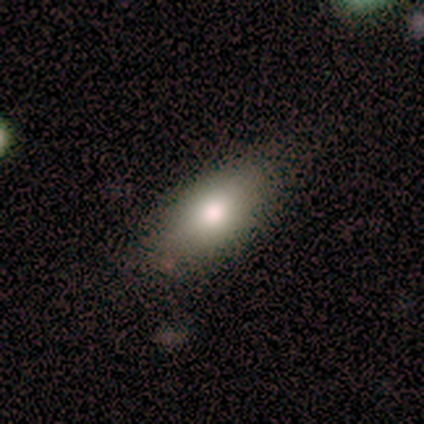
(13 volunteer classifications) This is clearly a smooth galaxy (92%). How rounded: clearly in between (100%). Merging: clearly none (92%).